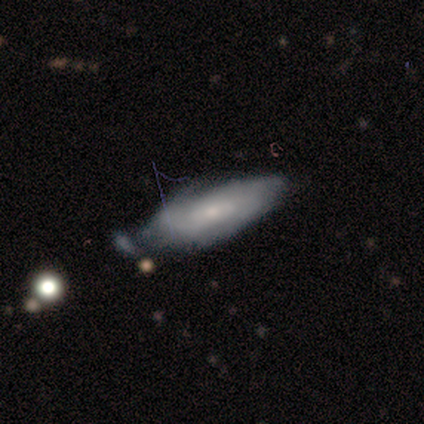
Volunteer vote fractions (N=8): Smooth or featured: featured or disk — 75% (smooth — 25%)
Edge-on disk: no — 67% (yes — 33%)
Bar: no — 100%
Spiral arms: yes — 75% (no — 25%)
Spiral winding: medium — 67% (tight — 33%)
Spiral arm count: 3 — 33% (tied with 4 — 33%; can't tell — 33%)
Bulge size: small — 75% (moderate — 25%)
Merging: none — 38% (tied with minor disturbance — 38%)